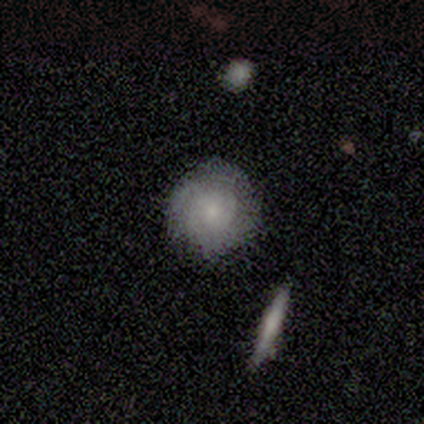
Morphology: type=smooth (80%); roundness=round (100%); merging=none (100%).